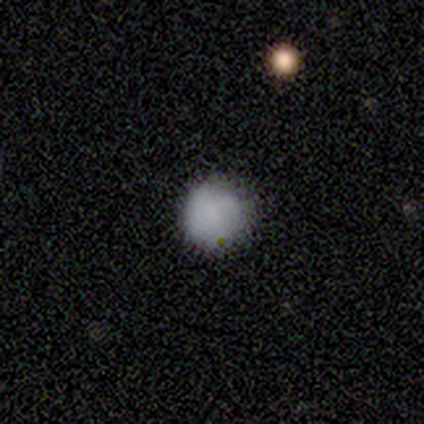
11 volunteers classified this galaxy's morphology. Volunteers were most divided on "how rounded": round: 82%, in between: 18%, cigar-shaped: 0%. More confident: smooth or featured — smooth (100%); merging — none (91%).